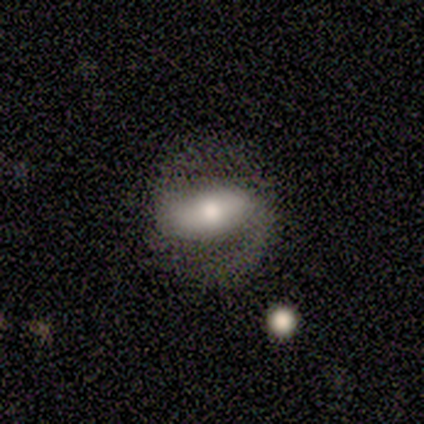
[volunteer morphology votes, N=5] featured or disk 60%, smooth 20%, star or artifact 20%. Down the decision tree: edge-on disk — no (67%); bar — strong (50%, tied with weak); spiral arms — yes (100%); spiral arm count — 2 (100%); spiral winding — medium (50%, tied with loose); bulge size — moderate (50%, tied with small); merging — none (100%).